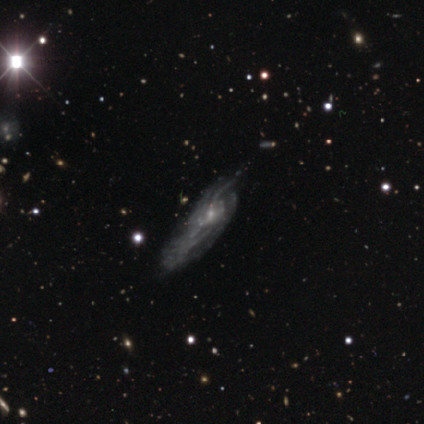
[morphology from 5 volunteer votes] type=featured or disk (80%); edge-on=no (75%); bar=no (67%); spiral arms=yes (67%); winding=tight (100%); arm count=more than 4 (100%); bulge=small (67%); merging=minor disturbance (50%, tied with major disturbance).